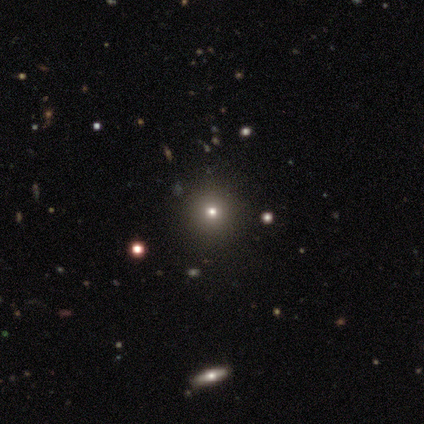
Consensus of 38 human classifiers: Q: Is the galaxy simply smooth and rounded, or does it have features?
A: star or artifact — 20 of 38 (53%).